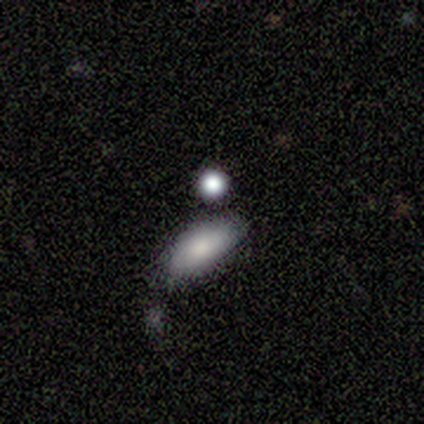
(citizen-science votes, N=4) Smooth or featured?
  - smooth: 75% *
  - star or artifact: 25%
  - featured or disk: 0%
How rounded?
  - in between: 67% *
  - round: 33%
  - cigar-shaped: 0%
Merging?
  - none: 67% *
  - minor disturbance: 33%
  - major disturbance: 0%
  - merger: 0%